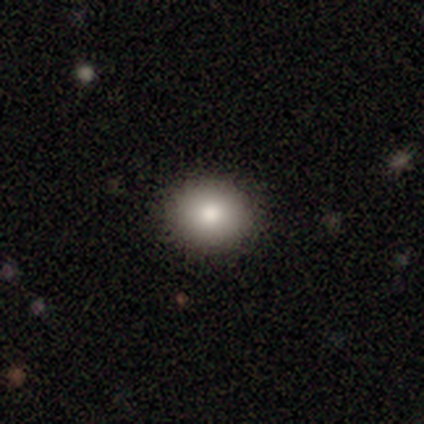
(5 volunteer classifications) Volunteers were most divided on "how rounded": round: 75%, in between: 25%, cigar-shaped: 0%. More confident: merging — none (100%); smooth or featured — smooth (80%).